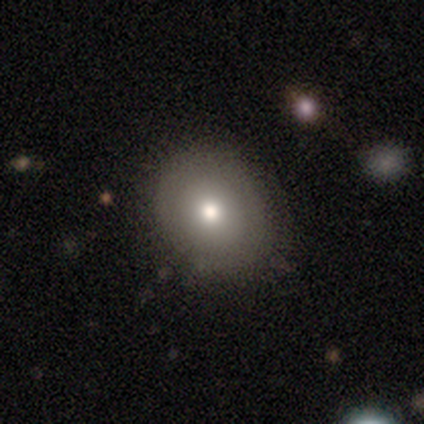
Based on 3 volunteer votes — Morphology: type=smooth (67%); roundness=round (50%, tied with in between); merging=none (100%).